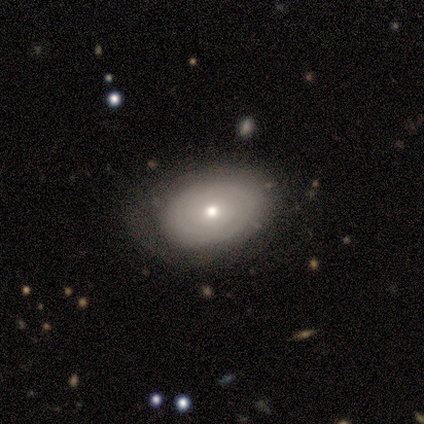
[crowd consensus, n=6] Smooth or featured?
  - smooth: 50% * (tied)
  - featured or disk: 50% * (tied)
  - star or artifact: 0%
How rounded?
  - in between: 67% *
  - round: 33%
  - cigar-shaped: 0%
Merging?
  - none: 83% *
  - major disturbance: 17%
  - minor disturbance: 0%
  - merger: 0%